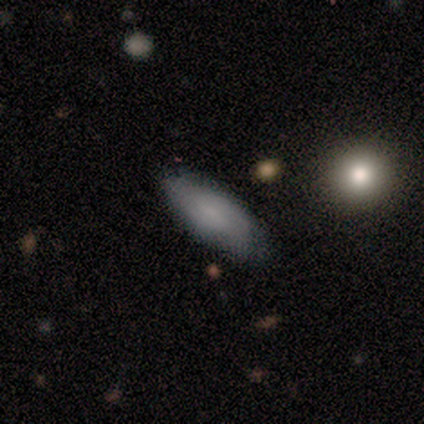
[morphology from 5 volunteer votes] Volunteers were most divided on "merging": none: 60%, minor disturbance: 20%, major disturbance: 20%, merger: 0%. More confident: smooth or featured — smooth (100%); how rounded — in between (80%).